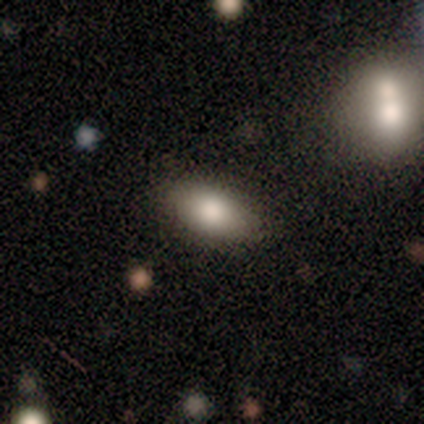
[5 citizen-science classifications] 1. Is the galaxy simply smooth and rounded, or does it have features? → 80% smooth, 20% featured or disk, 0% star or artifact.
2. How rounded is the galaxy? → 100% in between, 0% round, 0% cigar-shaped.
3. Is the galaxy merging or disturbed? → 100% none, 0% minor disturbance, 0% major disturbance, 0% merger.